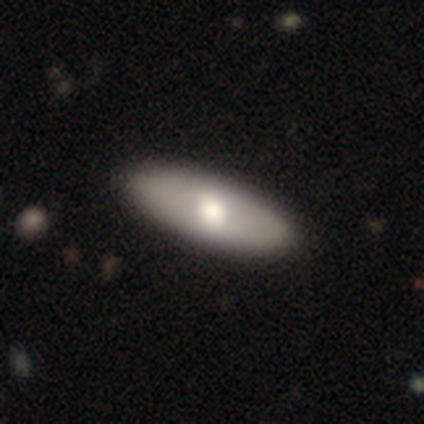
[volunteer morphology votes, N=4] This is clearly a smooth galaxy (100%). How rounded: likely in between (75%). Merging: clearly none (100%).